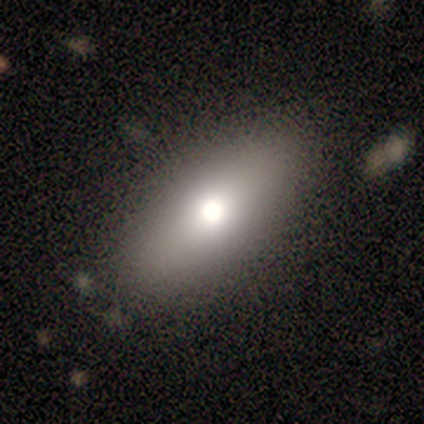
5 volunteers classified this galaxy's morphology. smooth-or-featured: smooth: 60% | featured or disk: 40% | star or artifact: 0%
  how-rounded: in between: 100% | round: 0% | cigar-shaped: 0%
  merging: none: 60% | minor disturbance: 40% | major disturbance: 0% | merger: 0%